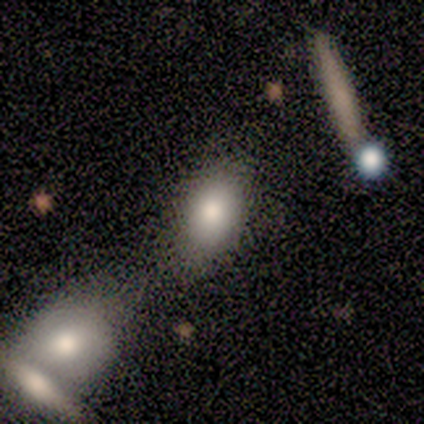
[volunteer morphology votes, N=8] Smooth or featured? smooth (88%)
How rounded? in between (71%)
Merging? none (57%)